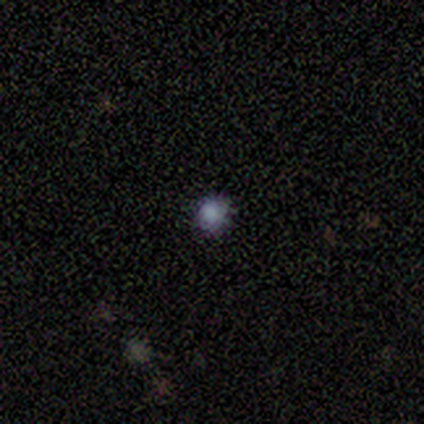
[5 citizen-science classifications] Smooth or featured? smooth (80%)
How rounded? round (75%)
Merging? none (100%)